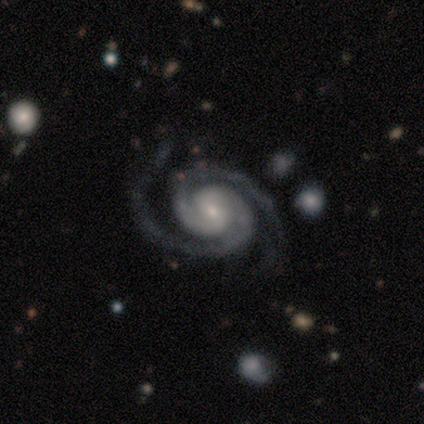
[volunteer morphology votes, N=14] A featured or disk galaxy (93%) with no bar (77%), 2 (85%) tight (85%) spiral arms (100%) and a small central bulge (69%).

Vote fractions:
- Smooth or featured? featured or disk: 93% / star or artifact: 7% / smooth: 0%
- Edge-on disk? no: 100% / yes: 0%
- Bar? no: 77% / weak: 15% / strong: 8%
- Spiral arms? yes: 100% / no: 0%
- Spiral winding? tight: 85% / medium: 8% / loose: 8%
- Spiral arm count? 2: 85% / 3: 15% / 1: 0% / 4: 0% / more than 4: 0% / can't tell: 0%
- Bulge size? small: 69% / moderate: 23% / large: 8% / dominant: 0% / none: 0%
- Merging? none: 69% / minor disturbance: 31% / major disturbance: 0% / merger: 0%